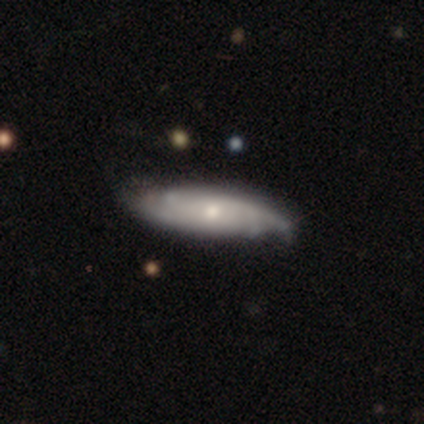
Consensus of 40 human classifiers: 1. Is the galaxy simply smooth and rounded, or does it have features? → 78% featured or disk, 18% smooth, 5% star or artifact.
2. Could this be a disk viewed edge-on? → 87% no, 13% yes.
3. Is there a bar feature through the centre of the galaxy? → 67% no, 26% weak, 7% strong.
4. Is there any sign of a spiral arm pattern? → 89% yes, 11% no.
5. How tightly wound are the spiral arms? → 58% tight, 38% medium, 4% loose.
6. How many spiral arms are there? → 42% can't tell, 33% 4, 17% 3, 8% 2, 0% 1, 0% more than 4.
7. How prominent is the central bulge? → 59% small, 30% moderate, 4% dominant, 4% large, 4% none.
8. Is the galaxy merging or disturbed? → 82% none, 18% minor disturbance, 0% major disturbance, 0% merger.